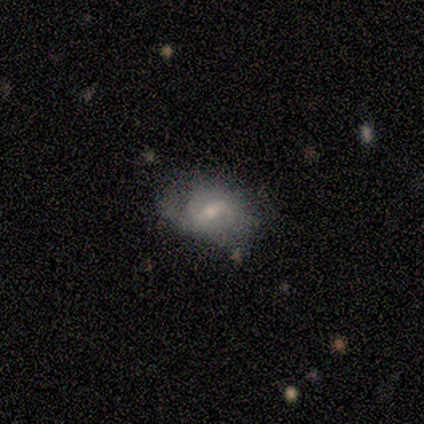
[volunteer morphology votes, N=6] Smooth or featured: featured or disk — 100%
Edge-on disk: no — 100%
Bar: weak — 50% (strong — 33%)
Spiral arms: yes — 100%
Spiral winding: loose — 50% (medium — 33%)
Spiral arm count: 2 — 83% (can't tell — 17%)
Bulge size: small — 67% (moderate — 33%)
Merging: none — 100%